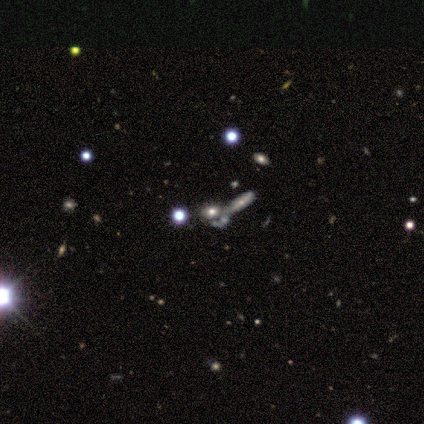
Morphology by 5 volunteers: This is clearly a smooth galaxy (80%). How rounded: possibly round (50%, tied with in between). Merging: possibly none (50%, tied with merger).